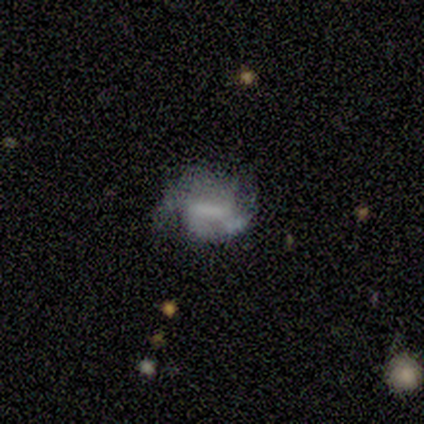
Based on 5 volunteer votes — Smooth or featured? featured or disk (60%)
Edge-on disk? no (100%)
Bar? strong (67%)
Spiral arms? yes (67%)
Spiral winding? tight (50%, tied with medium)
Spiral arm count? 2 (50%, tied with 4)
Bulge size? none (67%)
Merging? none (50%, tied with minor disturbance)